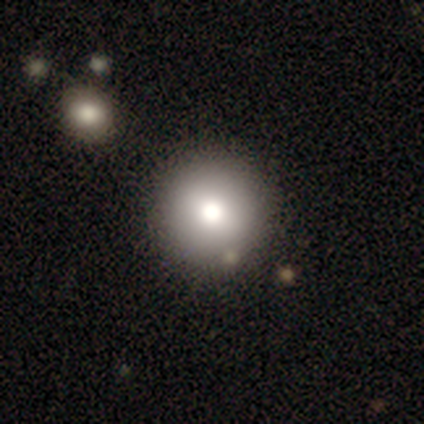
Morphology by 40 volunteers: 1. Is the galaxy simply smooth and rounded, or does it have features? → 72% smooth, 20% star or artifact, 8% featured or disk.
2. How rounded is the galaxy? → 93% round, 3% in between, 3% cigar-shaped.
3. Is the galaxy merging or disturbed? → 94% none, 3% minor disturbance, 3% merger, 0% major disturbance.